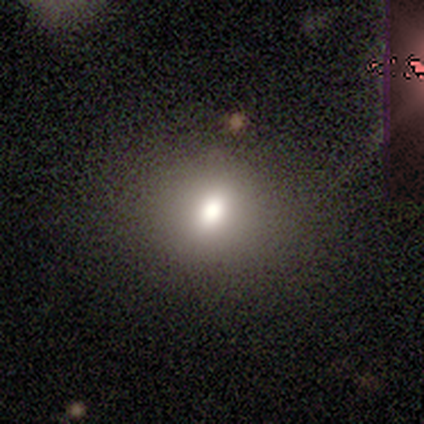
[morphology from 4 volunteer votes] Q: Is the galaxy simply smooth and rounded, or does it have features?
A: smooth — 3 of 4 (75%).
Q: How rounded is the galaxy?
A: in between — 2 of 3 (67%).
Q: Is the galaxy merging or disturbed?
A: none — 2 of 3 (67%).